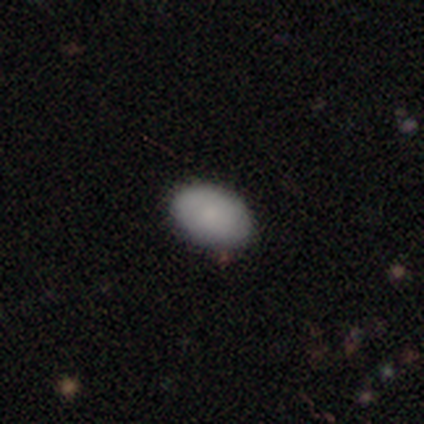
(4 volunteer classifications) Smooth or featured? smooth (100%)
How rounded? in between (100%)
Merging? none (100%)